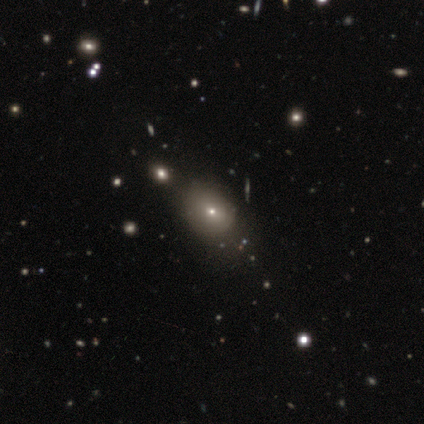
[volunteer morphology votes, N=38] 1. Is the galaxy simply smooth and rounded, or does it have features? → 68% smooth, 21% star or artifact, 11% featured or disk.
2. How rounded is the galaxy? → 65% in between, 35% round, 0% cigar-shaped.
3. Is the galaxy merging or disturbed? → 63% none, 13% minor disturbance, 10% merger, 0% major disturbance.